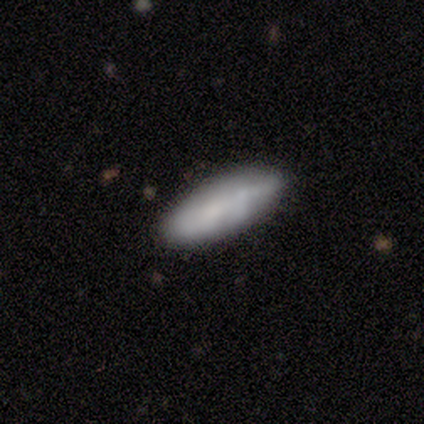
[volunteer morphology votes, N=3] Smooth or featured? 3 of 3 (100%) said smooth. How rounded? 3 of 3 (100%) said cigar-shaped. Merging? 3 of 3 (100%) said none.